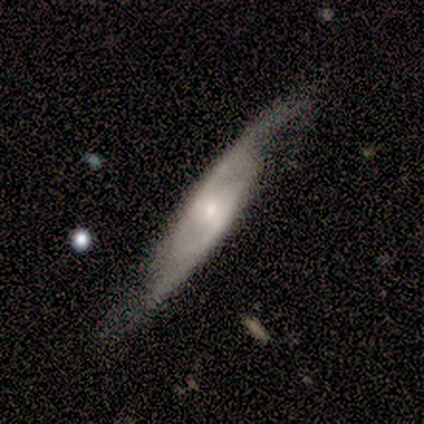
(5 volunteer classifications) Morphology: type=featured or disk (80%); edge-on=no (75%); bar=no (100%); spiral arms=yes (100%); winding=tight (33%, tied with medium and loose); arm count=2 (100%); bulge=small (67%); merging=none (80%).